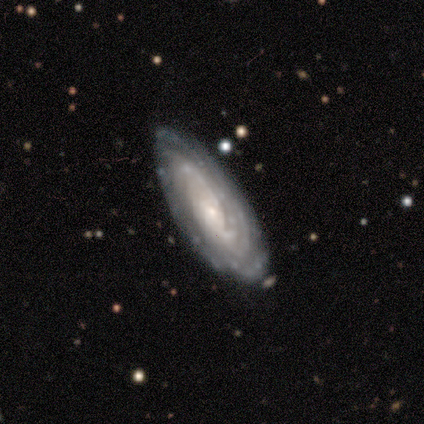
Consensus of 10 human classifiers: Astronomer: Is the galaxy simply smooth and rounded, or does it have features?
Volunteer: featured or disk — 80%.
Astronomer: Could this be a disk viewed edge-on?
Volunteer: no — 100%.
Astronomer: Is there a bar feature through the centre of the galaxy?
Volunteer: no — 100%.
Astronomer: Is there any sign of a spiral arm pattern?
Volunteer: yes — 100%.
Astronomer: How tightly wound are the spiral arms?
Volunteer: tight — 88%.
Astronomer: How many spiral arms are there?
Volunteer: can't tell — 62%.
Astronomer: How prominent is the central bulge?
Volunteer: small — 62%.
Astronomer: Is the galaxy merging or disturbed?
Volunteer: none — 100%.